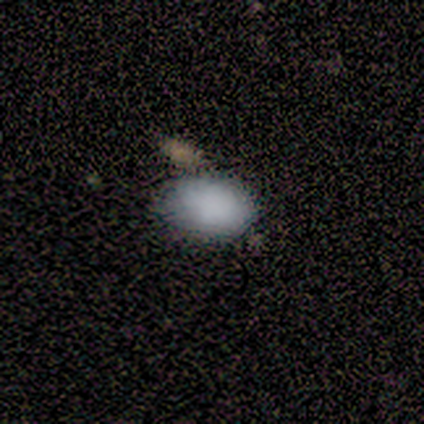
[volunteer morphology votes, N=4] A smooth galaxy with no disk features (100%) that is in between round and cigar-shaped (100%). Merging: minor disturbance (50%).